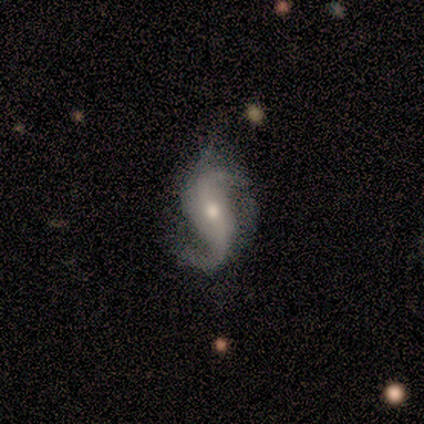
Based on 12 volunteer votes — A featured or disk galaxy (100%) with a strong bar (42%, tied with no), 2 (92%) loose (67%) spiral arms (100%) and a small central bulge (58%). Merging: none (58%).